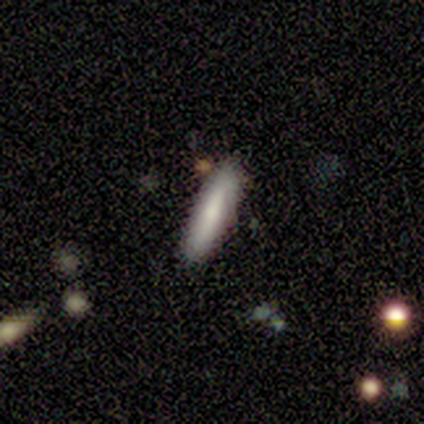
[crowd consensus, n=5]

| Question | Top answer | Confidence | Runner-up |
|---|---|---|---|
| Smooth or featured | smooth | 60% | featured or disk (20%) |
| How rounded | cigar-shaped | 100% | — |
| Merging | none | 100% | — |